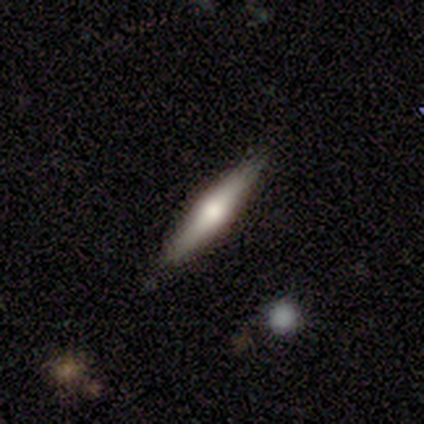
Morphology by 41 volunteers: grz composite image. It shows a smooth galaxy with no disk features (46%, tied with featured or disk) that is cigar-shaped (100%). Merging: none (84%).